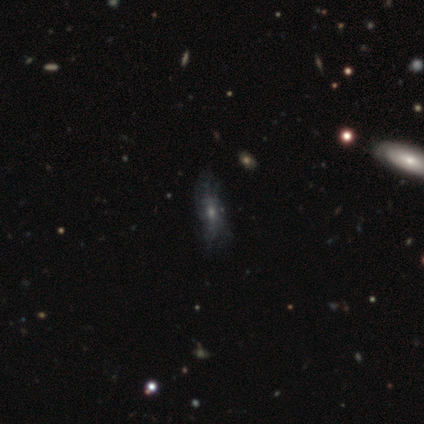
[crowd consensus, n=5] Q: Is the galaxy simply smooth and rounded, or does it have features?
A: featured or disk — 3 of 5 (60%).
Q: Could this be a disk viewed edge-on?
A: no — 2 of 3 (67%).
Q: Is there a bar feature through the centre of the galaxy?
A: no — 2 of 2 (100%).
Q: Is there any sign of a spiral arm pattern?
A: no — 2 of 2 (100%).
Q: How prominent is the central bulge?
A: small — 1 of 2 (50%, tied with none).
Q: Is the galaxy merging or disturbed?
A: none — 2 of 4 (50%).